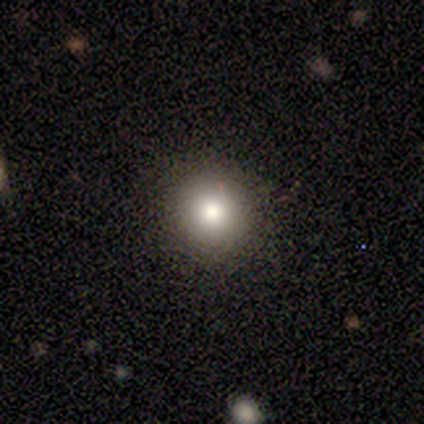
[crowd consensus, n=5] Morphology: type=smooth (100%); roundness=round (100%); merging=none (100%).